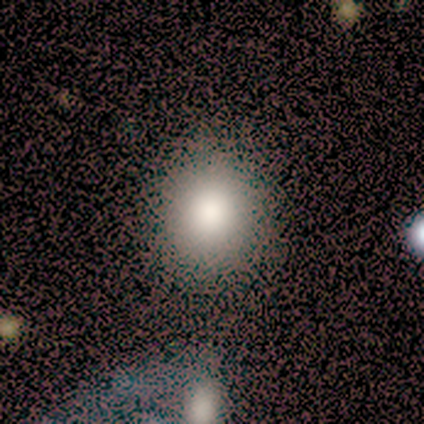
Smooth or featured: smooth — 76% (star or artifact — 16%)
How rounded: round — 93% (in between — 7%)
Merging: none — 53% (merger — 6%)